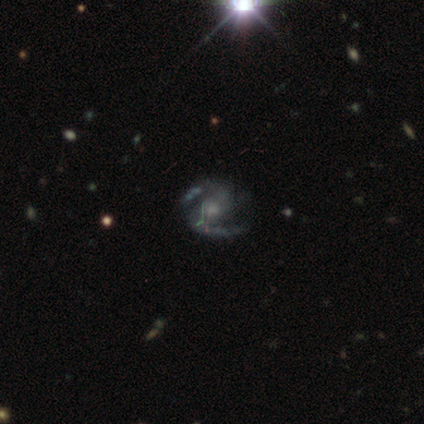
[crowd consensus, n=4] Smooth or featured: featured or disk — 100%
Edge-on disk: no — 100%
Bar: weak — 50% (strong — 25%)
Spiral arms: yes — 75% (no — 25%)
Spiral winding: tight — 67% (medium — 33%)
Spiral arm count: 2 — 100%
Bulge size: small — 100%
Merging: none — 50% (tied with minor disturbance — 50%)